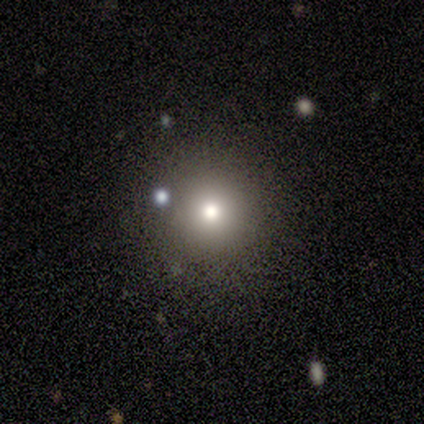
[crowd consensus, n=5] A smooth galaxy with no disk features (100%) that is round (100%).

Vote fractions:
- Smooth or featured? smooth: 100% / featured or disk: 0% / star or artifact: 0%
- How rounded? round: 100% / in between: 0% / cigar-shaped: 0%
- Merging? none: 100% / minor disturbance: 0% / major disturbance: 0% / merger: 0%